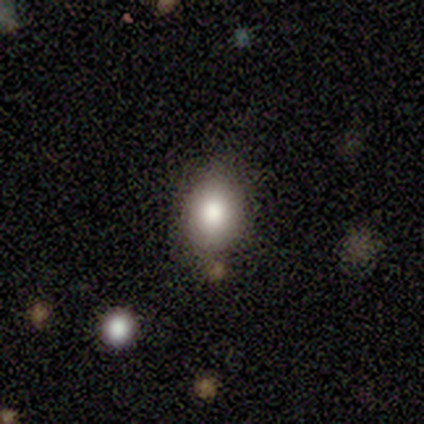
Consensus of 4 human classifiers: Smooth or featured? 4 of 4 (100%) said smooth. How rounded? 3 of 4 (75%) said round. Merging? 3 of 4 (75%) said none.